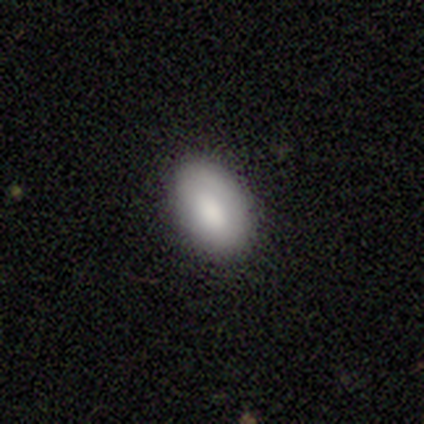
Smooth or featured?
  - smooth: 95% *
  - featured or disk: 3%
  - star or artifact: 3%
How rounded?
  - in between: 95% *
  - round: 5%
  - cigar-shaped: 0%
Merging?
  - none: 89% *
  - minor disturbance: 8%
  - major disturbance: 3%
  - merger: 0%